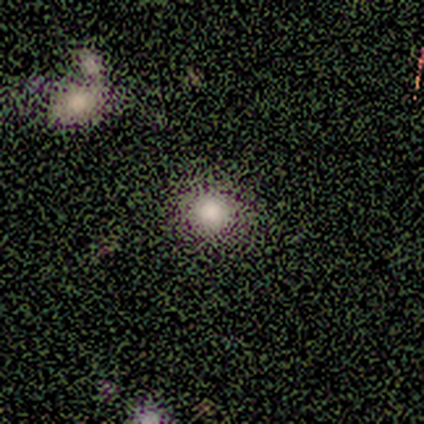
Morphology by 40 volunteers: A smooth galaxy with no disk features (60%) that is round (83%). Merging: none (73%).